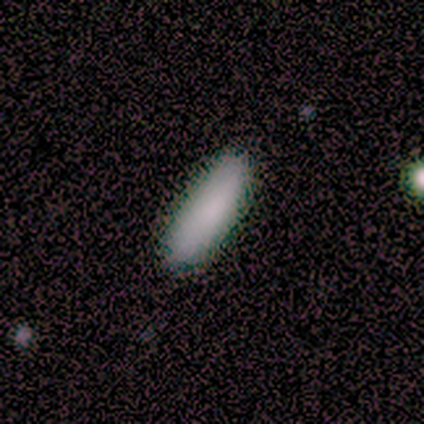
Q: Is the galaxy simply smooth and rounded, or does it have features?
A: smooth — 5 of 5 (100%).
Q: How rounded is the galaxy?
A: in between — 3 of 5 (60%).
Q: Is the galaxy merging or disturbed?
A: none — 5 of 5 (100%).